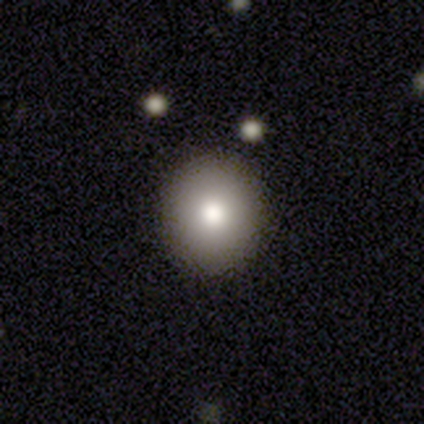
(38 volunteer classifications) A smooth galaxy with no disk features (79%) that is round (87%).

Vote fractions:
- Smooth or featured? smooth: 79% / featured or disk: 11% / star or artifact: 11%
- How rounded? round: 87% / in between: 13% / cigar-shaped: 0%
- Merging? none: 91% / minor disturbance: 9% / major disturbance: 0% / merger: 0%